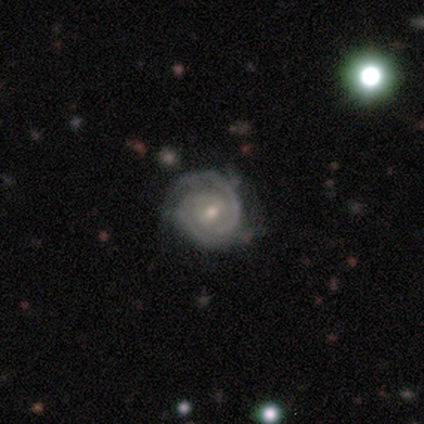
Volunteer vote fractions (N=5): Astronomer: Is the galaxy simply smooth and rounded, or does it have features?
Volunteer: featured or disk — 100%.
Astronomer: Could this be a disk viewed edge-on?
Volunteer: no — 100%.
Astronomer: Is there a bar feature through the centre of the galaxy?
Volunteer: weak — 100%.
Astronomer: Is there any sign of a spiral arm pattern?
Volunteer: yes — 100%.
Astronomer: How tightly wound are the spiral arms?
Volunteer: tight — 100%.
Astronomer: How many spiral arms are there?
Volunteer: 2 — 100%.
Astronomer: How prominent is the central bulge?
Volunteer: small — 100%.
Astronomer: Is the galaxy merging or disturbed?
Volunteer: none — 100%.